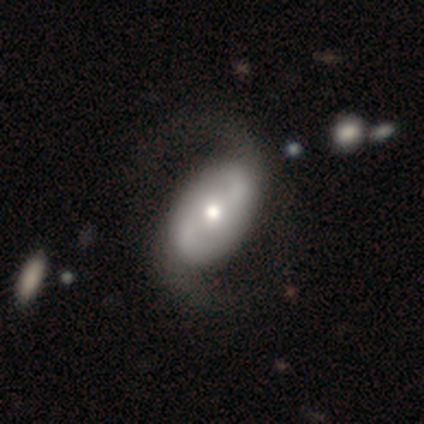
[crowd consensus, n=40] Volunteers were most divided on "spiral winding" (2-way tie): medium: 43%, loose: 43%, tight: 13%. Remaining: edge-on disk — no (100%); spiral arms — yes (94%); spiral arm count — 2 (93%); smooth or featured — featured or disk (80%); bulge size — moderate (62%); merging — none (55%); bar — no (44%).